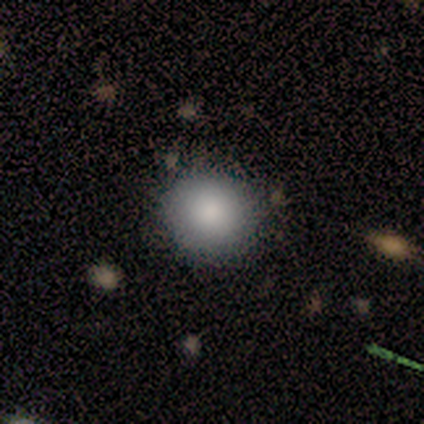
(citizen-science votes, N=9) Overall: smooth (100%). How rounded: round (89%). Merging: none (89%).